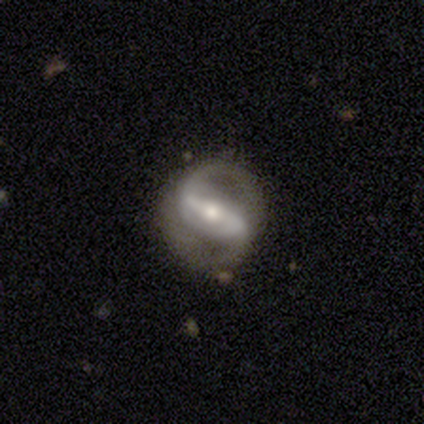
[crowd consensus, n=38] smooth_or_featured: featured or disk (p=0.97) [alt: star or artifact p=0.03]
disk_edge_on: no (p=0.97) [alt: yes p=0.03]
bar: strong (p=0.64) [alt: weak p=0.22]
has_spiral_arms: yes (p=0.92) [alt: no p=0.08]
spiral_winding: medium (p=0.45) [alt: loose p=0.39]
spiral_arm_count: 2 (p=0.91) [alt: can't tell p=0.06]
bulge_size: moderate (p=0.67) [alt: small p=0.28]
merging: none (p=0.76) [alt: minor disturbance p=0.14]